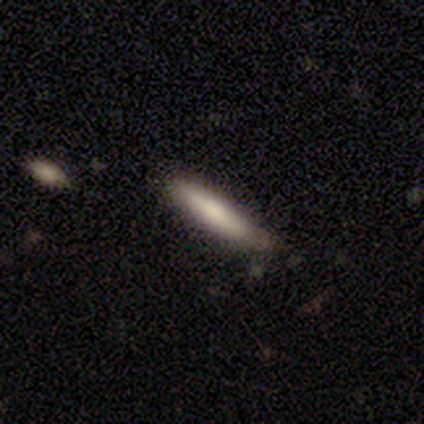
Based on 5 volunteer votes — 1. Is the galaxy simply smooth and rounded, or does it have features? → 40% smooth (tied), 40% featured or disk (tied), 20% star or artifact.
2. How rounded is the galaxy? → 50% in between (tied), 50% cigar-shaped (tied), 0% round.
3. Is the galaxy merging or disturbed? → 50% none (tied), 50% minor disturbance (tied), 0% major disturbance, 0% merger.